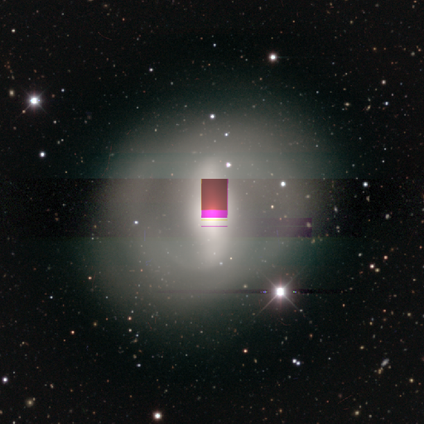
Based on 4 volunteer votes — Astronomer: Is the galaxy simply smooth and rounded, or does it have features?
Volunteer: featured or disk — 100%.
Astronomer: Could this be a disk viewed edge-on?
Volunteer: no — 100%.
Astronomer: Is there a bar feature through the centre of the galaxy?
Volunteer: strong — 75%.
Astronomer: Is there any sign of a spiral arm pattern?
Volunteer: yes — 50%, tied with no at 50%.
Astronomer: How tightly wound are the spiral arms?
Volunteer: medium — 50%, tied with loose at 50%.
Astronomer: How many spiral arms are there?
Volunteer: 2 — 100%.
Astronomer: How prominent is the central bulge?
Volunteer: moderate — 50%.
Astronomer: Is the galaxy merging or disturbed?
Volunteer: none — 50%.